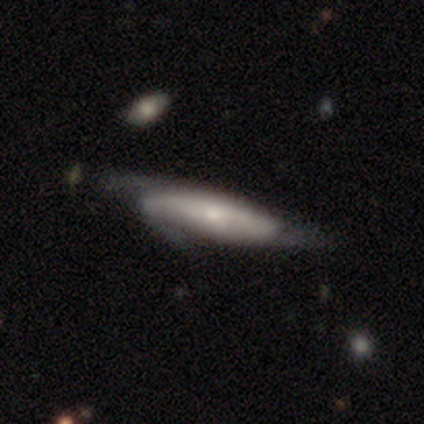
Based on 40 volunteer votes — A featured or disk galaxy (62%) with no bar (63%), medium (53%) spiral arms (89%) and a small central bulge (68%).

Vote fractions:
- Smooth or featured? featured or disk: 62% / smooth: 30% / star or artifact: 8%
- Edge-on disk? no: 76% / yes: 24%
- Bar? no: 63% / weak: 32% / strong: 5%
- Spiral arms? yes: 89% / no: 11%
- Spiral winding? medium: 53% / loose: 35% / tight: 12%
- Spiral arm count? can't tell: 53% / 3: 29% / 2: 12% / 1: 6% / 4: 0% / more than 4: 0%
- Bulge size? small: 68% / large: 11% / moderate: 11% / none: 11% / dominant: 0%
- Merging? minor disturbance: 27% / none: 24% / major disturbance: 14% / merger: 8%